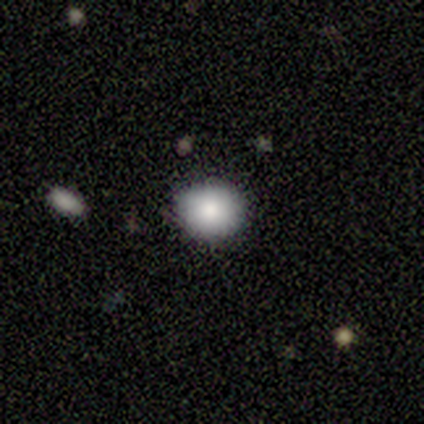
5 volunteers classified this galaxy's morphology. Smooth or featured?
  - smooth: 80% *
  - star or artifact: 20%
  - featured or disk: 0%
How rounded?
  - round: 75% *
  - in between: 25%
  - cigar-shaped: 0%
Merging?
  - none: 75% *
  - minor disturbance: 25%
  - major disturbance: 0%
  - merger: 0%